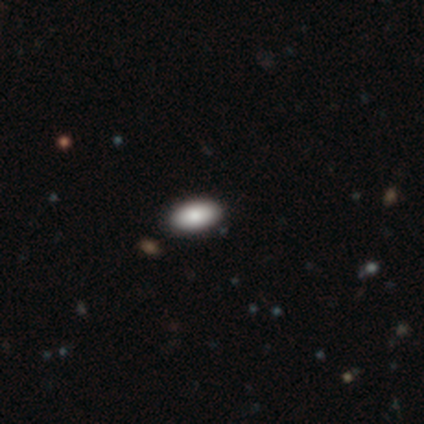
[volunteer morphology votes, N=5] Smooth or featured? 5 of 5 (100%) said smooth. How rounded? 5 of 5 (100%) said in between. Merging? 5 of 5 (100%) said none.